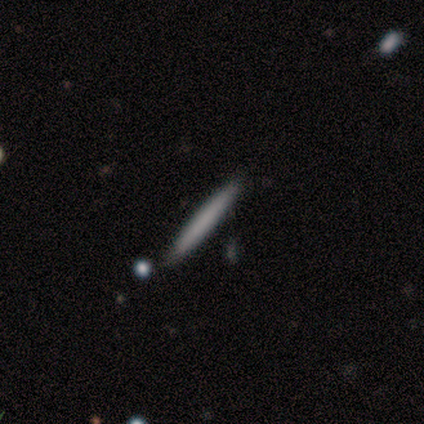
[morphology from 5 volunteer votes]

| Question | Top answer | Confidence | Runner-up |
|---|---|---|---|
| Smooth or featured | smooth | 80% | featured or disk (20%) |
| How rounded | cigar-shaped | 100% | — |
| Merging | none | 100% | — |